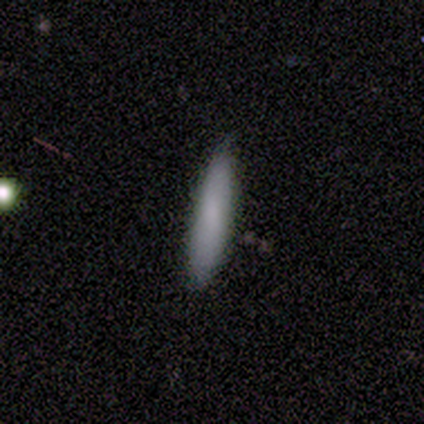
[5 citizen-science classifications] This is likely a smooth galaxy (60%). How rounded: likely in between (67%). Merging: likely none (60%).